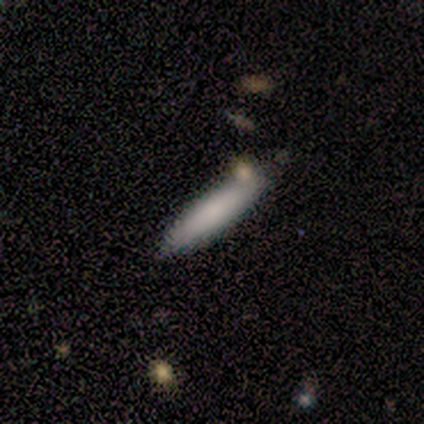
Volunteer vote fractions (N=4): Smooth or featured? 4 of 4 (100%) said smooth. How rounded? 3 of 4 (75%) said cigar-shaped. Merging? 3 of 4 (75%) said none.